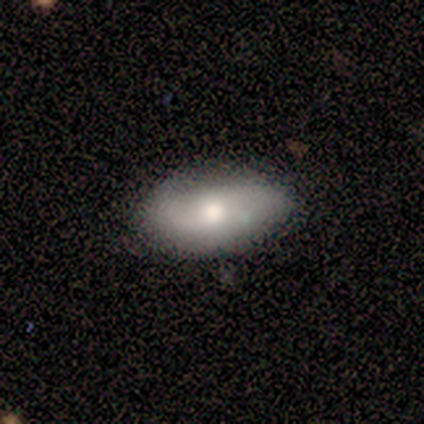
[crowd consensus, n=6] Smooth or featured?
  - smooth: 50% * (tied)
  - featured or disk: 50% * (tied)
  - star or artifact: 0%
How rounded?
  - in between: 100% *
  - round: 0%
  - cigar-shaped: 0%
Merging?
  - none: 100% *
  - minor disturbance: 0%
  - major disturbance: 0%
  - merger: 0%